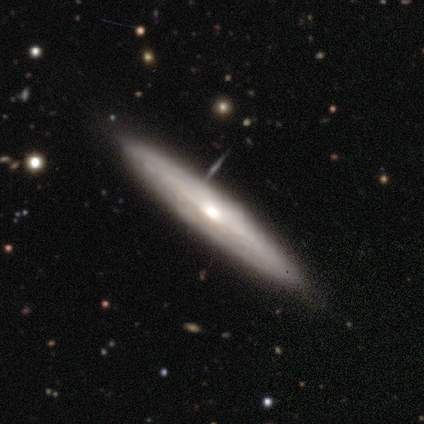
Smooth or featured?
  - featured or disk: 80% *
  - smooth: 20%
  - star or artifact: 0%
Edge-on disk?
  - yes: 75% *
  - no: 25%
Edge-on bulge?
  - rounded: 67% *
  - none: 33%
  - boxy: 0%
Merging?
  - none: 80% *
  - minor disturbance: 20%
  - major disturbance: 0%
  - merger: 0%